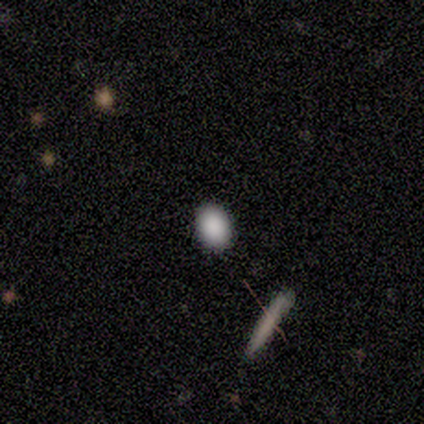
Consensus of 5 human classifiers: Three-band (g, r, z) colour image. It shows a smooth galaxy with no disk features (80%) that is in between round and cigar-shaped (100%). Merging: none (100%).